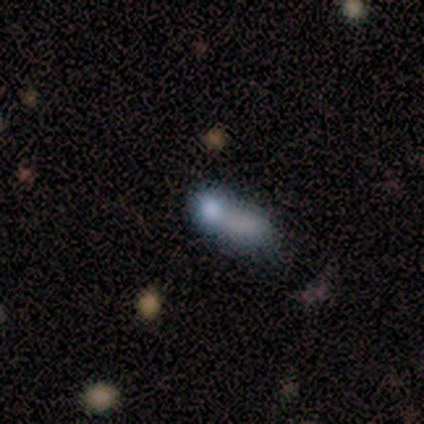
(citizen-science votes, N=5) Smooth or featured?
  - smooth: 60% *
  - featured or disk: 20%
  - star or artifact: 20%
How rounded?
  - round: 33% * (tied)
  - in between: 33% * (tied)
  - cigar-shaped: 33% * (tied)
Merging?
  - none: 25% * (tied)
  - minor disturbance: 25% * (tied)
  - major disturbance: 25% * (tied)
  - merger: 25% * (tied)